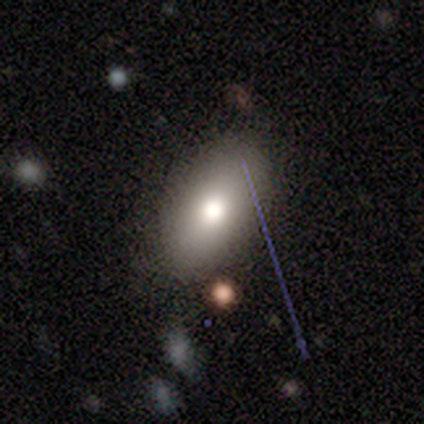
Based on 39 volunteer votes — Smooth or featured? 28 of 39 (72%) said smooth. How rounded? 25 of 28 (89%) said in between. Merging? 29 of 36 (81%) said none.